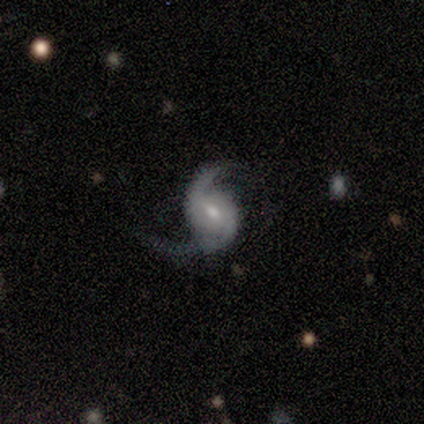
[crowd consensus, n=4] This appears to be a featured or disk galaxy (100%) with a weak bar (100%), 2 (100%) medium (67%) spiral arms (75%) and a moderate central bulge (75%). Merging: none (75%).